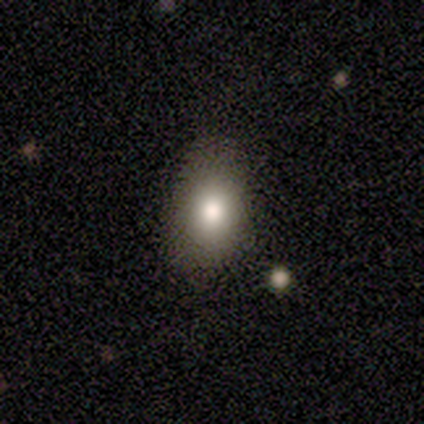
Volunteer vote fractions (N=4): Volunteers were most divided on "how rounded": in between: 67%, cigar-shaped: 33%, round: 0%. More confident: smooth or featured — smooth (75%); merging — none (75%).